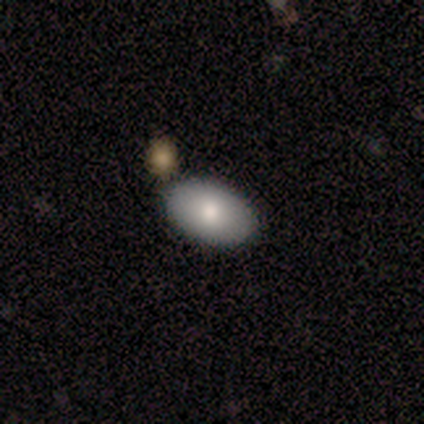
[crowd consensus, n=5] Smooth or featured? smooth (80%)
How rounded? in between (100%)
Merging? none (100%)